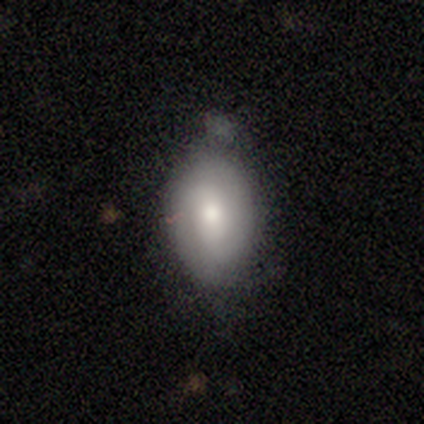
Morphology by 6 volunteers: A featured or disk galaxy (67%) with a weak bar (50%, tied with no), 2 (67%) tight (67%) spiral arms (75%) and a moderate central bulge (100%).

Vote fractions:
- Smooth or featured? featured or disk: 67% / smooth: 17% / star or artifact: 17%
- Edge-on disk? no: 100% / yes: 0%
- Bar? weak: 50% (tied) / no: 50% (tied) / strong: 0%
- Spiral arms? yes: 75% / no: 25%
- Spiral winding? tight: 67% / medium: 33% / loose: 0%
- Spiral arm count? 2: 67% / can't tell: 33% / 1: 0% / 3: 0% / 4: 0% / more than 4: 0%
- Bulge size? moderate: 100% / dominant: 0% / large: 0% / small: 0% / none: 0%
- Merging? none: 100% / minor disturbance: 0% / major disturbance: 0% / merger: 0%